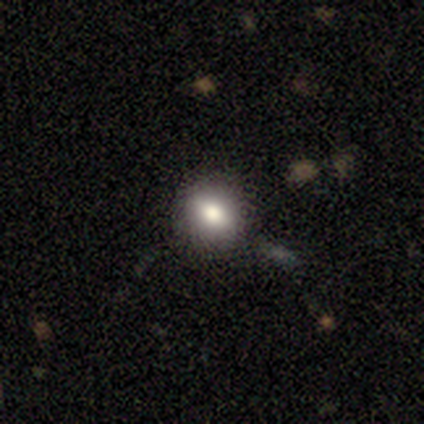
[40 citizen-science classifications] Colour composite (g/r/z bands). It shows a smooth galaxy with no disk features (82%) that is round (82%). Merging: none (82%).